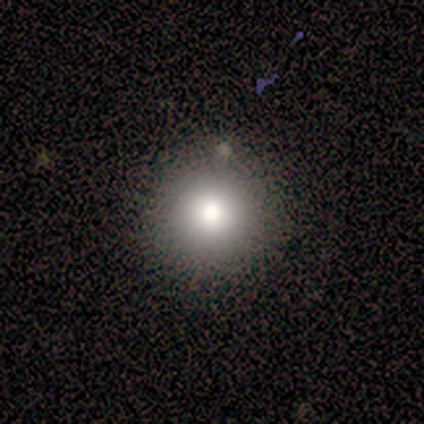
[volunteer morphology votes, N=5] smooth_or_featured: smooth (p=1.00)
how_rounded: round (p=0.80) [alt: in between p=0.20]
merging: none (p=0.80) [alt: minor disturbance p=0.20]